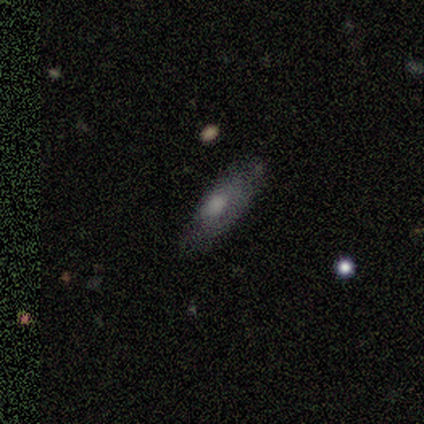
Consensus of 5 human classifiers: Smooth or featured? smooth (40%, tied with featured or disk)
How rounded? in between (50%, tied with cigar-shaped)
Merging? none (75%)